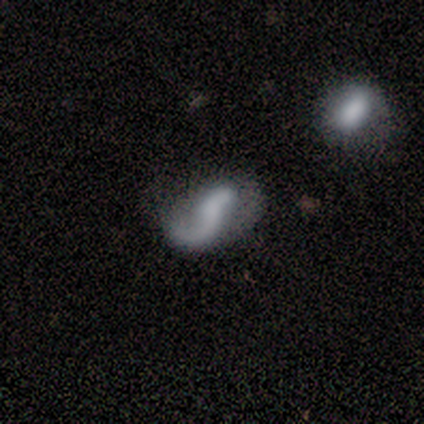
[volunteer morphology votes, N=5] Smooth or featured? 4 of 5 (80%) said featured or disk. Edge-on disk? 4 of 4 (100%) said no. Bar? 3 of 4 (75%) said no. Spiral arms? 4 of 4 (100%) said yes. Spiral winding? 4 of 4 (100%) said loose. Spiral arm count? 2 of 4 (50%, tied with 2) said 1. Bulge size? 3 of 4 (75%) said none. Merging? 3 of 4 (75%) said minor disturbance.